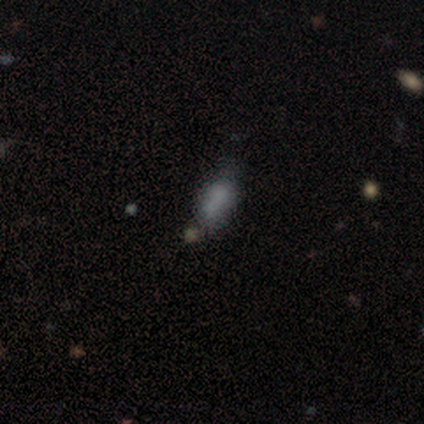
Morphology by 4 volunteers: A smooth galaxy with no disk features (50%) that is cigar-shaped (100%).

Vote fractions:
- Smooth or featured? smooth: 50% / featured or disk: 25% / star or artifact: 25%
- How rounded? cigar-shaped: 100% / round: 0% / in between: 0%
- Merging? none: 67% / major disturbance: 33% / minor disturbance: 0% / merger: 0%